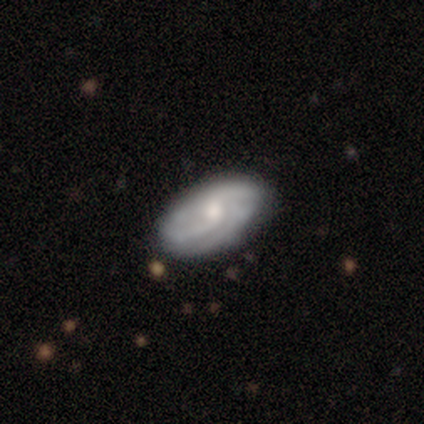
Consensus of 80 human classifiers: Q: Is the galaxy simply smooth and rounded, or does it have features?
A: featured or disk — 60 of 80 (75%).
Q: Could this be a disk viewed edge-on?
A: no — 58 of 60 (97%).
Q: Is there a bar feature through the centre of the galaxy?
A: no — 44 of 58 (76%).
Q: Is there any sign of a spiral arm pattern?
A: yes — 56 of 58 (97%).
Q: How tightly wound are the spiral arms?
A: loose — 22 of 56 (39%).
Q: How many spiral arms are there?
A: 2 — 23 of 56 (41%).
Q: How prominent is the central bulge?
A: moderate — 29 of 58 (50%).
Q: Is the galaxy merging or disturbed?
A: none — 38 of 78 (49%).